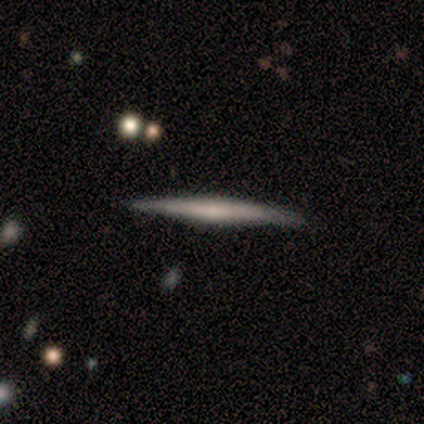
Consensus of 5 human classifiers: smooth_or_featured: smooth (p=0.60) [alt: featured or disk p=0.40]
how_rounded: cigar-shaped (p=1.00)
merging: none (p=1.00)